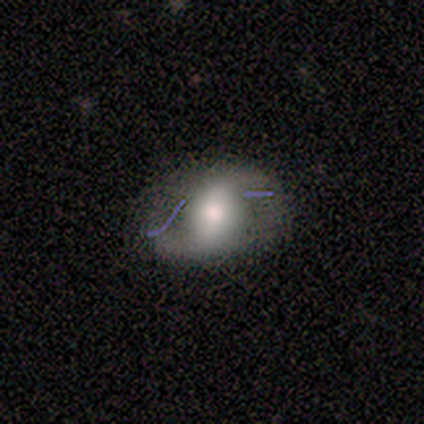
Volunteers were most divided on "bulge size" (2-way tie): large: 50%, moderate: 50%, dominant: 0%, small: 0%, none: 0%. More confident: smooth or featured — featured or disk (100%); edge-on disk — no (100%); spiral winding — loose (100%); spiral arm count — 2 (100%); merging — none (100%); spiral arms — yes (75%); bar — weak (50%).